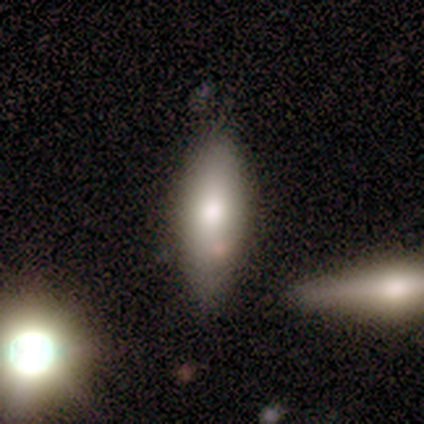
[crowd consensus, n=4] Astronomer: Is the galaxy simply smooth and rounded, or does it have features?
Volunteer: smooth — 75%.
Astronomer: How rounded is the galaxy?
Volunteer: in between — 67%.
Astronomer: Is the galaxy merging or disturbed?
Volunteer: none — 50%.